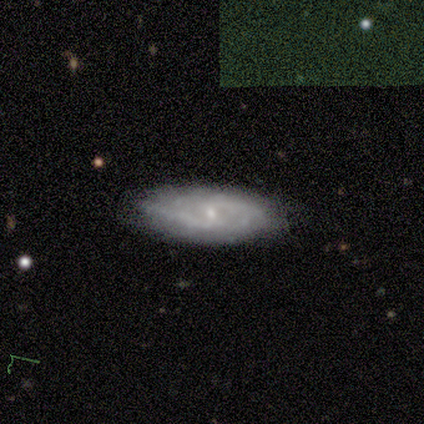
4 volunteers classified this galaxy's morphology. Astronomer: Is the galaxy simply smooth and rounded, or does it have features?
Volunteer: smooth — 50%, tied with featured or disk at 50%.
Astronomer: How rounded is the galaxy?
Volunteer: in between — 100%.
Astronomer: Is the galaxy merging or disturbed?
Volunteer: none — 100%.